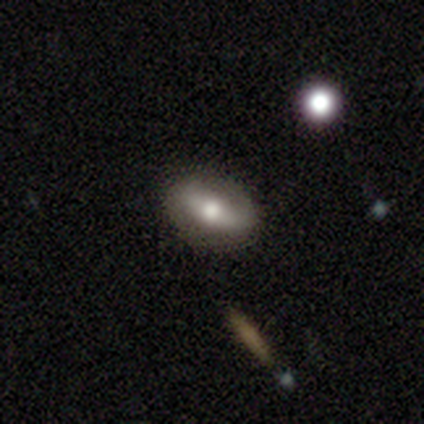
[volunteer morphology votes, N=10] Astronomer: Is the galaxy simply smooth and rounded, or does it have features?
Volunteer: smooth — 70%.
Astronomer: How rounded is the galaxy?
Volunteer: in between — 86%.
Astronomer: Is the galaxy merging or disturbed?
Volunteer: none — 80%.